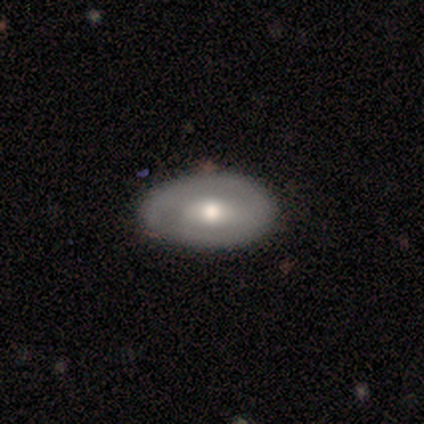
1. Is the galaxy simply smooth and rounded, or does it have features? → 80% smooth, 20% featured or disk, 0% star or artifact.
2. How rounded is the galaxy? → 50% round (tied), 50% in between (tied), 0% cigar-shaped.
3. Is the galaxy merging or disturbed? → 80% none, 20% minor disturbance, 0% major disturbance, 0% merger.